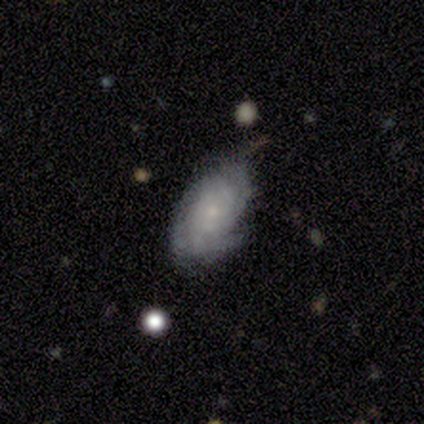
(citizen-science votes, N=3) This is likely a featured or disk galaxy (67%). It is clearly not viewed edge-on (100%). Bar: clearly no (100%). Spiral arm pattern: clearly yes (100%). Spiral arm count: possibly 2 (50%, tied with can't tell). Spiral winding: possibly medium (50%, tied with loose). Central bulge: clearly small (100%). Merging: clearly none (100%).